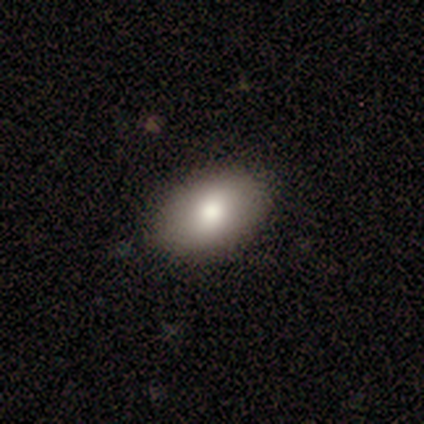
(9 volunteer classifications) Overall: smooth (89%). How rounded: in between (100%). Merging: none (100%).